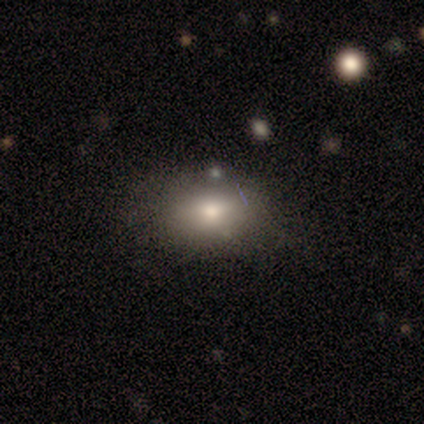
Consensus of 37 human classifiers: Q: Smooth or featured?
A: smooth (76%); runner-up: star or artifact (19%)
Q: How rounded?
A: in between (89%); runner-up: round (11%)
Q: Merging?
A: none (63%); runner-up: minor disturbance (33%)